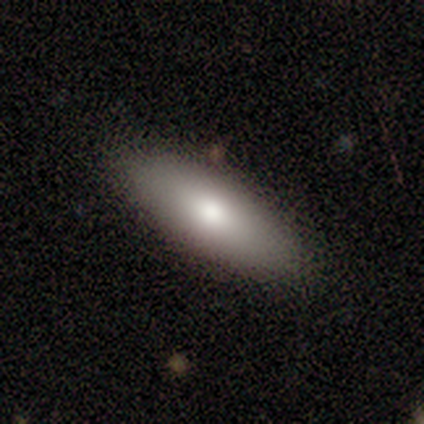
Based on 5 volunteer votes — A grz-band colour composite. It shows a smooth galaxy with no disk features (80%) that is in between round and cigar-shaped (75%). Merging: none (75%).